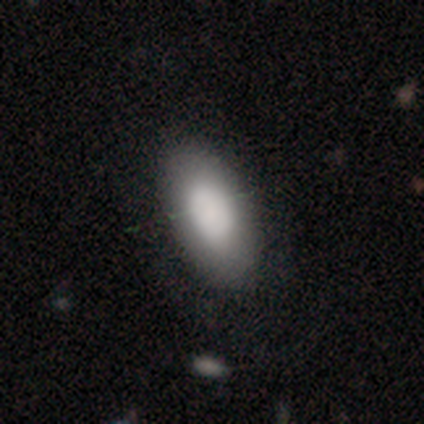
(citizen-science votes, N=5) Q: Smooth or featured?
A: smooth (80%); runner-up: featured or disk (20%)
Q: How rounded?
A: in between (75%); runner-up: cigar-shaped (25%)
Q: Merging?
A: none (100%)